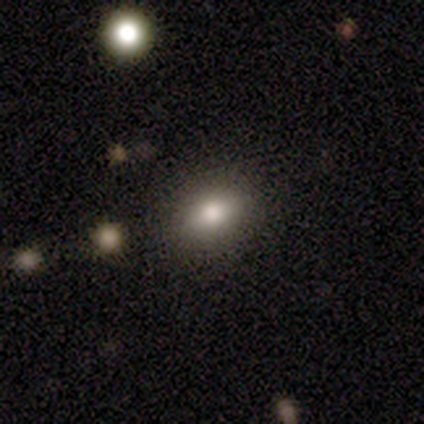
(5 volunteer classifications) Overall: smooth (100%). How rounded: in between (100%). Merging: none (100%).